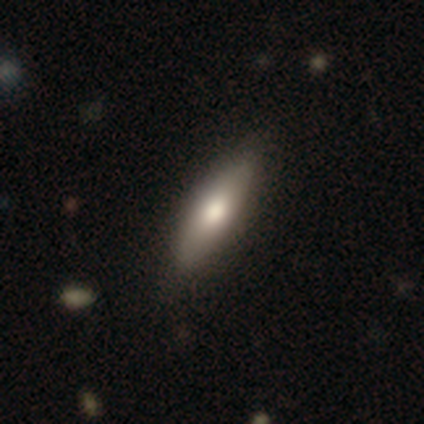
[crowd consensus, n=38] smooth-or-featured: smooth: 68% | featured or disk: 29% | star or artifact: 3%
  how-rounded: in between: 62% | cigar-shaped: 38% | round: 0%
  merging: none: 62% | minor disturbance: 8% | merger: 5% | major disturbance: 0%